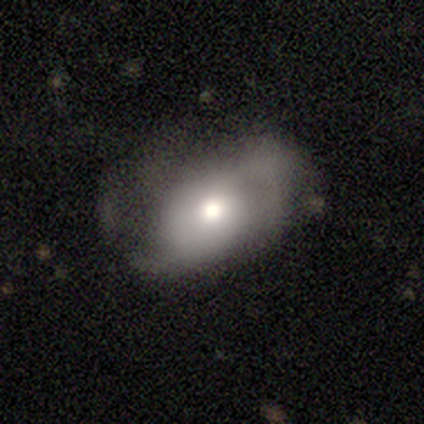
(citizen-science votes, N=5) A smooth galaxy with no disk features (100%) that is in between round and cigar-shaped (60%). Merging: major disturbance (80%).